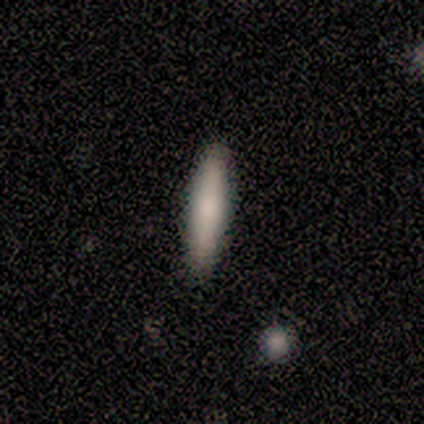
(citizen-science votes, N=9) A smooth galaxy with no disk features (89%) that is cigar-shaped (75%). Merging: none (89%).